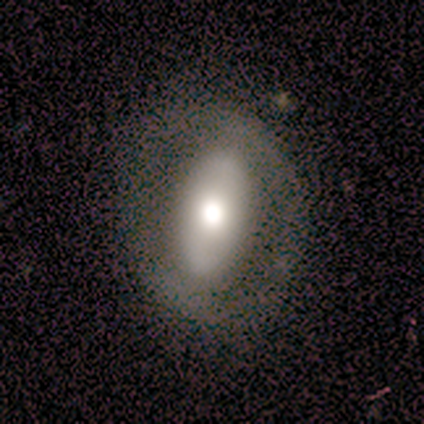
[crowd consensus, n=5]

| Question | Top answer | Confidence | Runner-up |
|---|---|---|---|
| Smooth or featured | featured or disk | 60% | smooth (40%) |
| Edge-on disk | no | 100% | — |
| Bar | no | 67% | weak (33%) |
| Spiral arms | no | 100% | — |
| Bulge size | moderate | 67% | large (33%) |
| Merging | none | 60% | minor disturbance (20%) |